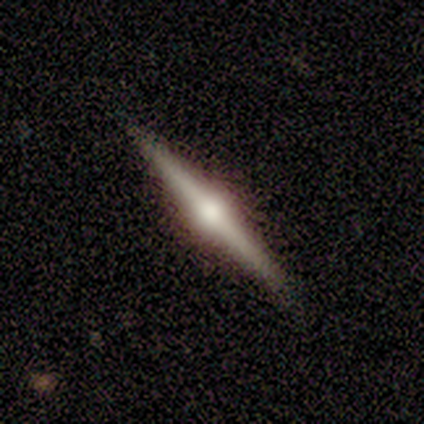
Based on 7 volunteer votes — Smooth or featured?
  - featured or disk: 86% *
  - smooth: 14%
  - star or artifact: 0%
Edge-on disk?
  - yes: 100% *
  - no: 0%
Edge-on bulge?
  - rounded: 100% *
  - boxy: 0%
  - none: 0%
Merging?
  - none: 71% *
  - minor disturbance: 14%
  - major disturbance: 14%
  - merger: 0%